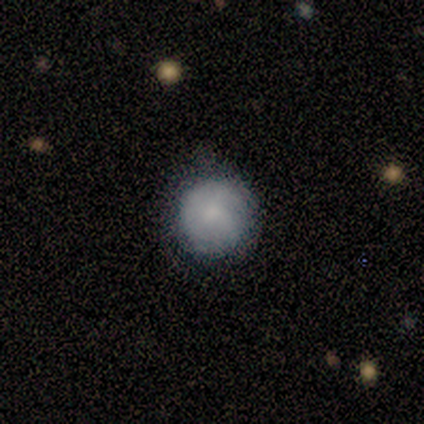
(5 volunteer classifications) This appears to be a smooth galaxy with no disk features (100%) that is round (100%). Merging: none (60%).